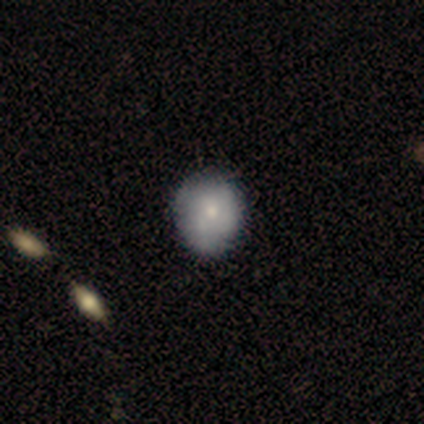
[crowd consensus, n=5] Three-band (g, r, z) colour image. It shows a smooth galaxy with no disk features (40%, tied with featured or disk) that is round (100%). Merging: none (75%).